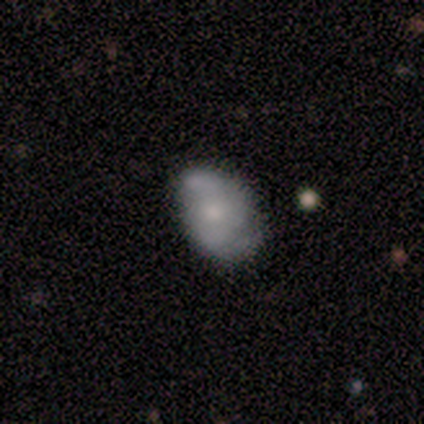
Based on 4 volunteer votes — smooth 50% (tied), featured or disk 50% (tied), star or artifact 0%. Down the decision tree: how rounded — in between (100%); merging — minor disturbance (50%).